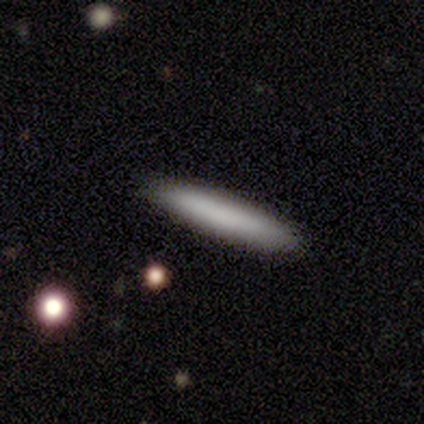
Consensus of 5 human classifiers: smooth-or-featured: smooth: 100% | featured or disk: 0% | star or artifact: 0%
  how-rounded: cigar-shaped: 100% | round: 0% | in between: 0%
  merging: none: 100% | minor disturbance: 0% | major disturbance: 0% | merger: 0%